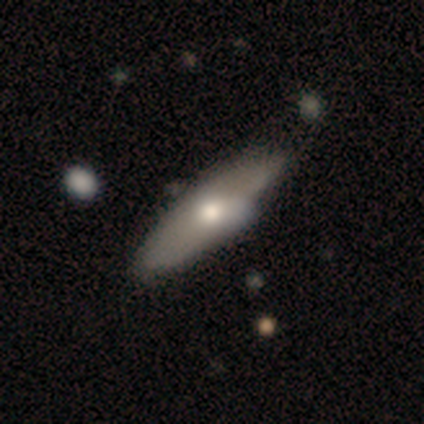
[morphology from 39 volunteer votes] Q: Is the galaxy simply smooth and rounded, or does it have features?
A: featured or disk — 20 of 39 (51%).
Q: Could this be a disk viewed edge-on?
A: no — 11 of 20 (55%).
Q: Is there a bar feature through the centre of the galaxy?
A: no — 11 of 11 (100%).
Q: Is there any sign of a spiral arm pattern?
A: no — 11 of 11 (100%).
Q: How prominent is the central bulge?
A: moderate — 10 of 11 (91%).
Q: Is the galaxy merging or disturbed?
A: none — 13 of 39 (33%).